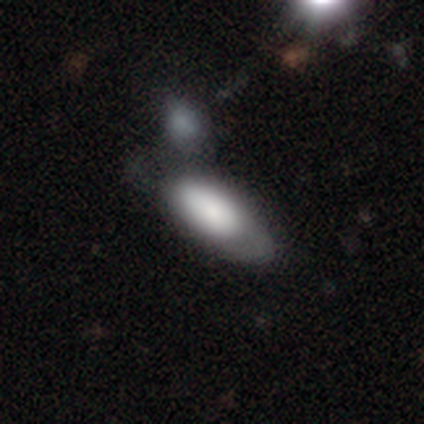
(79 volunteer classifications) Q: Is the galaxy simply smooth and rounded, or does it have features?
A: smooth — 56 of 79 (71%).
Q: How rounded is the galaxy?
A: in between — 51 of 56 (91%).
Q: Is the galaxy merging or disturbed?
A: merger — 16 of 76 (21%).